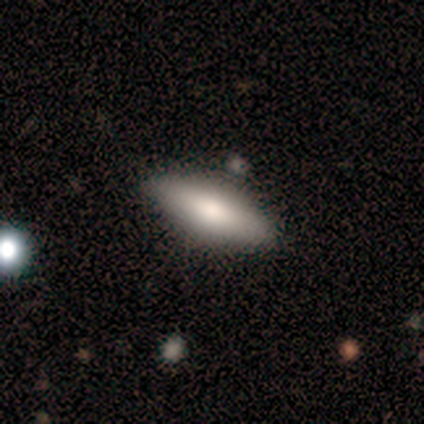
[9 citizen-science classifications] Smooth or featured? smooth (89%)
How rounded? in between (62%)
Merging? none (100%)